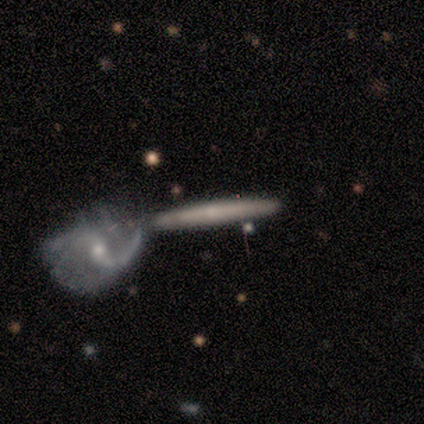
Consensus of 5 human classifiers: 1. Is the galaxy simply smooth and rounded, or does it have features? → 60% featured or disk, 40% smooth, 0% star or artifact.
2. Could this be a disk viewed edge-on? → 67% yes, 33% no.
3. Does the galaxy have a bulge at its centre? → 50% none (tied), 50% rounded (tied), 0% boxy.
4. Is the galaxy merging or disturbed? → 60% merger, 40% none, 0% minor disturbance, 0% major disturbance.